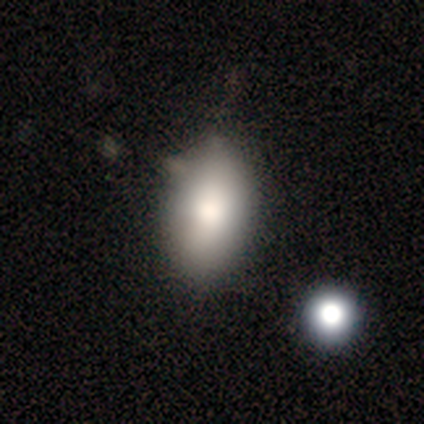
Smooth or featured?
  - smooth: 80% *
  - featured or disk: 20%
  - star or artifact: 0%
How rounded?
  - in between: 75% *
  - round: 25%
  - cigar-shaped: 0%
Merging?
  - minor disturbance: 60% *
  - none: 40%
  - major disturbance: 0%
  - merger: 0%